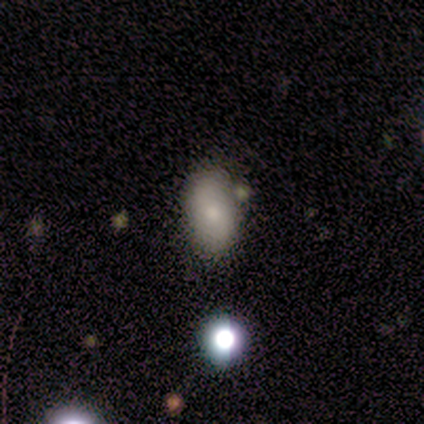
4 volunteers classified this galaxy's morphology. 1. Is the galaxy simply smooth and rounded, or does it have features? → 75% smooth, 25% star or artifact, 0% featured or disk.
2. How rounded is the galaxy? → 100% in between, 0% round, 0% cigar-shaped.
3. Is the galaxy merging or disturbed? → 100% none, 0% minor disturbance, 0% major disturbance, 0% merger.